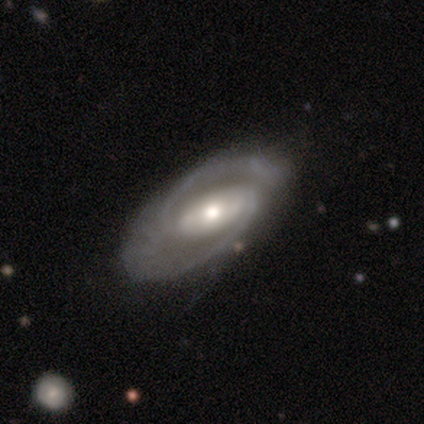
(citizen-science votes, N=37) Morphology: type=featured or disk (92%); edge-on=no (85%); bar=strong (45%); spiral arms=yes (100%); winding=medium (55%); arm count=2 (90%); bulge=moderate (66%); merging=none (64%).